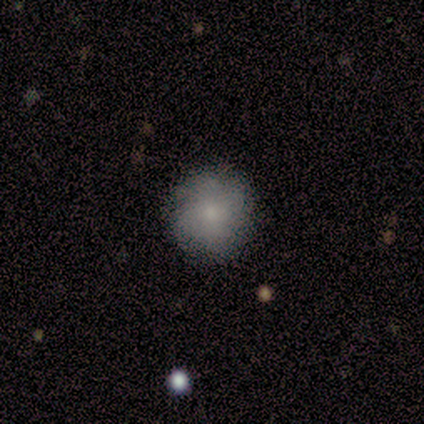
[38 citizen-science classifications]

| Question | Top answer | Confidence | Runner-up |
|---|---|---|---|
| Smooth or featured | smooth | 66% | featured or disk (32%) |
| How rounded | round | 100% | — |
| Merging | none | 84% | minor disturbance (16%) |